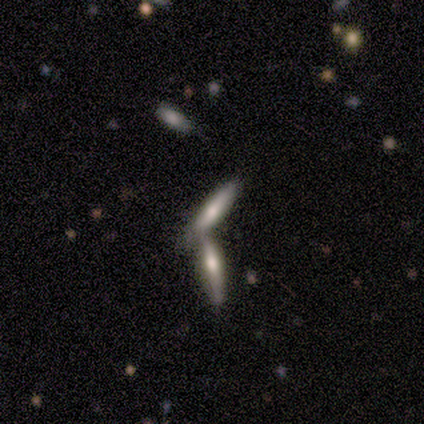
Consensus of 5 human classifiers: Smooth or featured? 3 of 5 (60%) said featured or disk. Edge-on disk? 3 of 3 (100%) said yes. Edge-on bulge? 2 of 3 (67%) said rounded. Merging? 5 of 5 (100%) said merger.